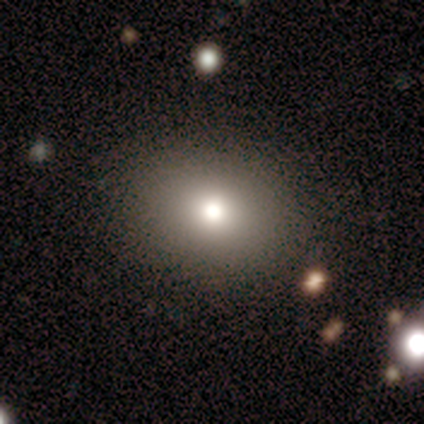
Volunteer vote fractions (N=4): smooth 50%, featured or disk 25%, star or artifact 25%. Down the decision tree: how rounded — round (50%, tied with in between); merging — none (100%).